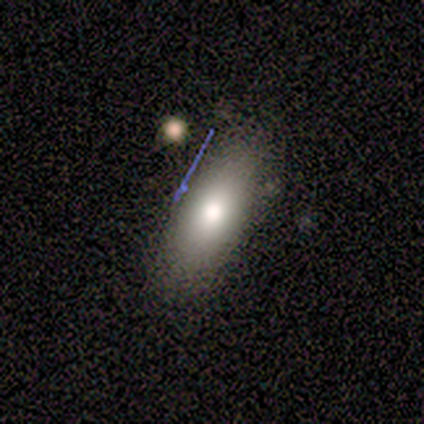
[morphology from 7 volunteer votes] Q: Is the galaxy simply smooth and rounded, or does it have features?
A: smooth — 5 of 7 (71%).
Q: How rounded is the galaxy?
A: in between — 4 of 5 (80%).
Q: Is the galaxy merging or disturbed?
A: none — 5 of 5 (100%).